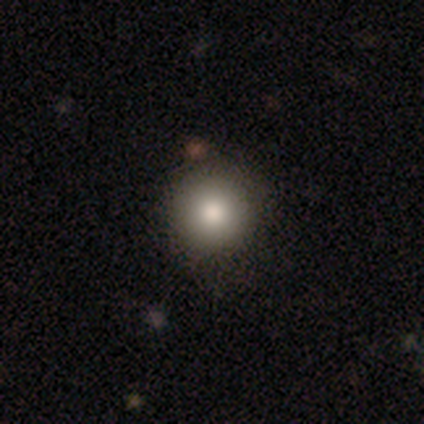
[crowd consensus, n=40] smooth-or-featured: smooth: 90% | featured or disk: 8% | star or artifact: 2%
  how-rounded: round: 100% | in between: 0% | cigar-shaped: 0%
  merging: none: 56% | minor disturbance: 8% | merger: 5% | major disturbance: 0%